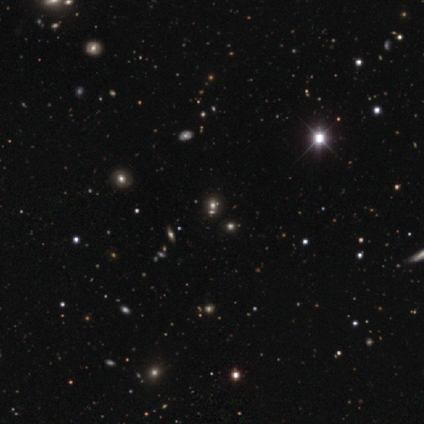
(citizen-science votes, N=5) A smooth galaxy with no disk features (40%, tied with star or artifact) that is round (100%).

Vote fractions:
- Smooth or featured? smooth: 40% (tied) / star or artifact: 40% (tied) / featured or disk: 20%
- How rounded? round: 100% / in between: 0% / cigar-shaped: 0%
- Merging? none: 33% (tied) / minor disturbance: 33% (tied) / merger: 33% (tied) / major disturbance: 0%